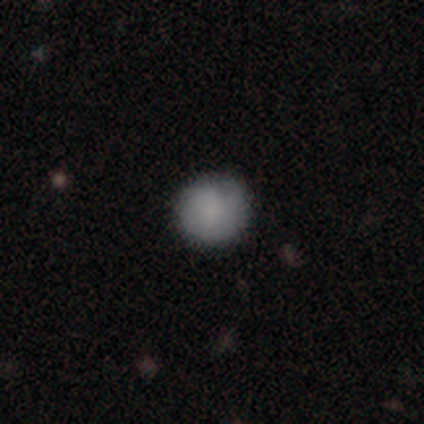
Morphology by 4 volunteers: Smooth or featured? smooth (50%, tied with featured or disk)
How rounded? round (100%)
Merging? none (100%)